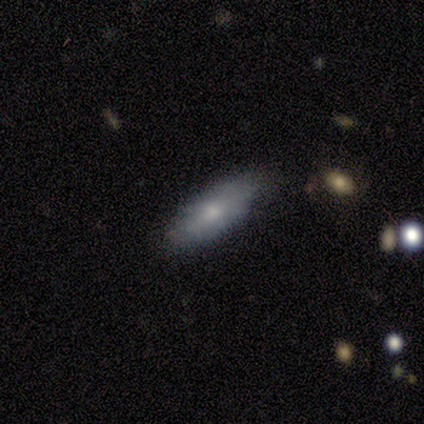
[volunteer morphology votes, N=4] smooth-or-featured: smooth: 75% | featured or disk: 25% | star or artifact: 0%
  how-rounded: cigar-shaped: 67% | in between: 33% | round: 0%
  merging: minor disturbance: 75% | none: 25% | major disturbance: 0% | merger: 0%